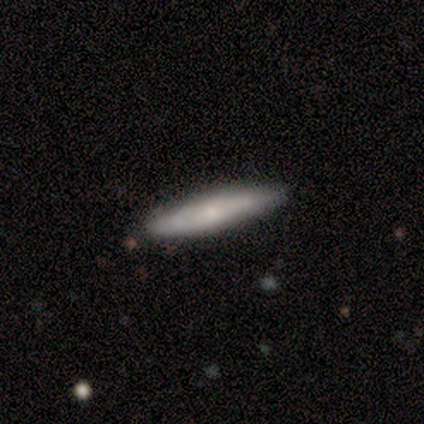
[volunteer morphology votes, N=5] A featured or disk galaxy (60%) viewed edge-on (100%) with a rounded central bulge (67%).

Vote fractions:
- Smooth or featured? featured or disk: 60% / smooth: 20% / star or artifact: 20%
- Edge-on disk? yes: 100% / no: 0%
- Edge-on bulge? rounded: 67% / boxy: 33% / none: 0%
- Merging? none: 100% / minor disturbance: 0% / major disturbance: 0% / merger: 0%